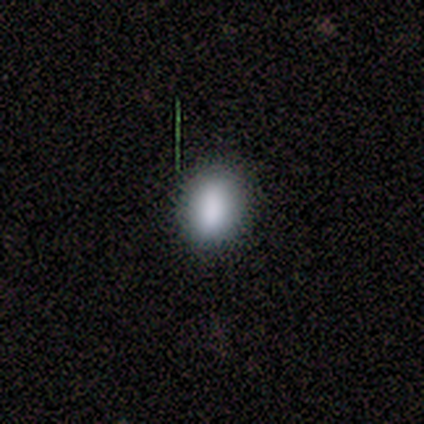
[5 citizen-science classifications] This is clearly a smooth galaxy (100%). How rounded: clearly in between (80%). Merging: clearly none (100%).